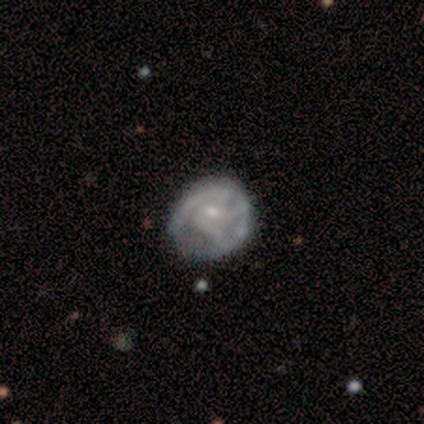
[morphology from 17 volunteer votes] Smooth or featured: featured or disk — 65% (smooth — 18%)
Edge-on disk: no — 100%
Bar: no — 64% (weak — 36%)
Spiral arms: yes — 64% (no — 36%)
Spiral winding: tight — 57% (medium — 43%)
Spiral arm count: 3 — 43% (2 — 29%)
Bulge size: small — 73% (moderate — 18%)
Merging: none — 43% (minor disturbance — 36%)